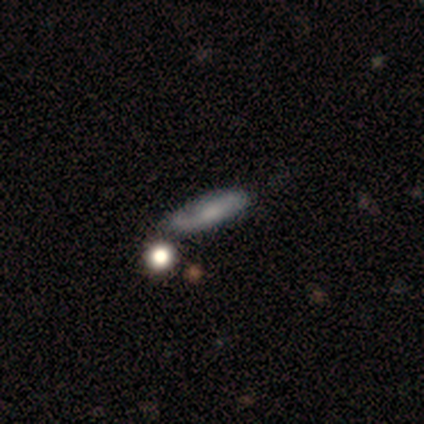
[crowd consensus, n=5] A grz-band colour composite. It shows a featured or disk galaxy (60%) with no bar (100%), 2 (100%) tight (50%, tied with loose) spiral arms (100%) and a moderate central bulge (50%, tied with none). Merging: none (40%, tied with minor disturbance).